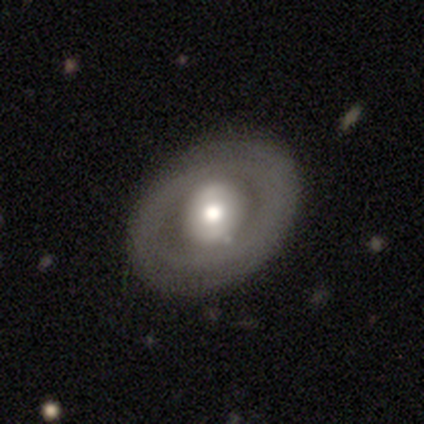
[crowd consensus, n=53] This appears to be a featured or disk galaxy (62%) with no bar (73%), no spiral arms (76%) and a moderate central bulge (52%). Merging: none (82%).